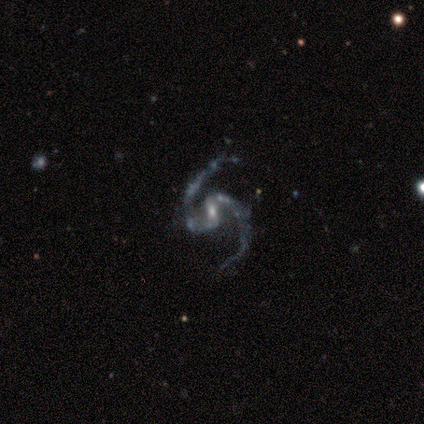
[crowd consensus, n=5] Smooth or featured? featured or disk (80%)
Edge-on disk? no (100%)
Bar? weak (50%, tied with no)
Spiral arms? yes (100%)
Spiral winding? medium (75%)
Spiral arm count? 2 (100%)
Bulge size? small (75%)
Merging? none (100%)